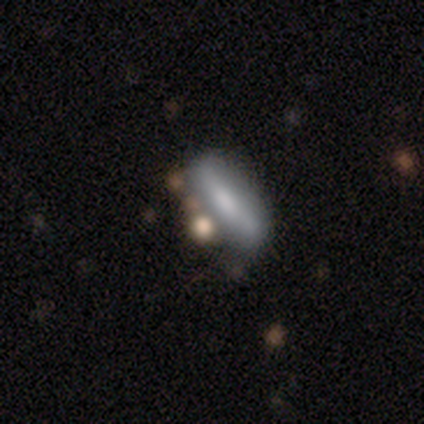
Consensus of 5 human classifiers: Smooth or featured? smooth (80%)
How rounded? in between (50%, tied with cigar-shaped)
Merging? none (60%)